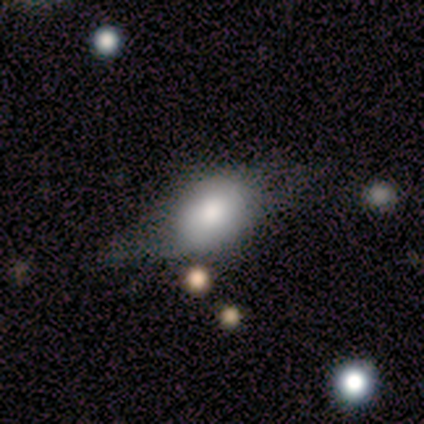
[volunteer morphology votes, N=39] This appears to be a smooth galaxy with no disk features (67%) that is in between round and cigar-shaped (81%). Merging: none (46%).